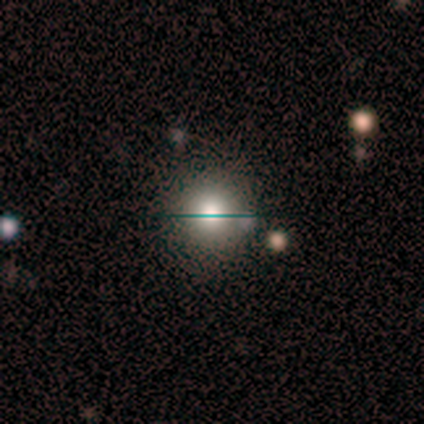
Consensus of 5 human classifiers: Q: Smooth or featured?
A: star or artifact (60%); runner-up: smooth (20%)